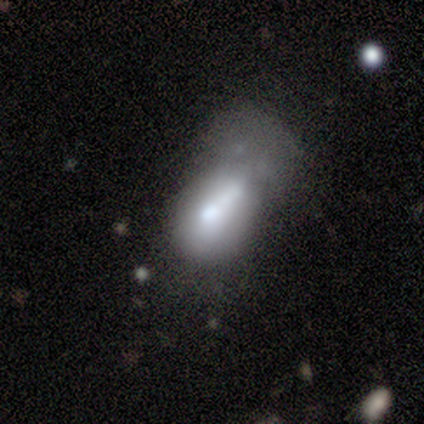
Smooth or featured? 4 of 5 (80%) said smooth. How rounded? 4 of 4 (100%) said in between. Merging? 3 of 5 (60%) said major disturbance.